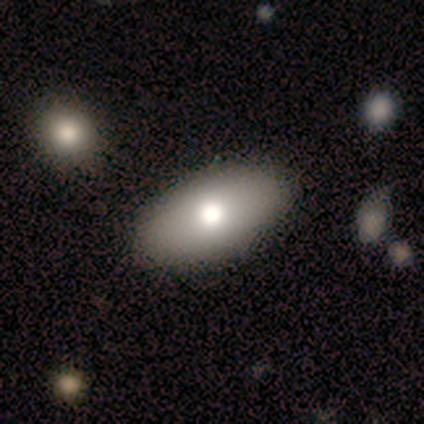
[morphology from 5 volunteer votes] Volunteers were most divided on "smooth or featured": smooth: 80%, star or artifact: 20%, featured or disk: 0%. More confident: how rounded — in between (100%); merging — none (100%).